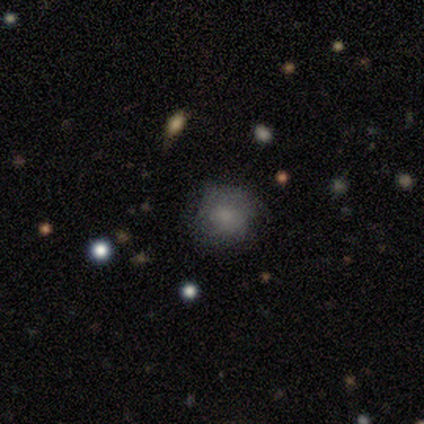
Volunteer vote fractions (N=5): smooth-or-featured: smooth: 60% | featured or disk: 40% | star or artifact: 0%
  how-rounded: round: 100% | in between: 0% | cigar-shaped: 0%
  merging: none: 60% | minor disturbance: 40% | major disturbance: 0% | merger: 0%